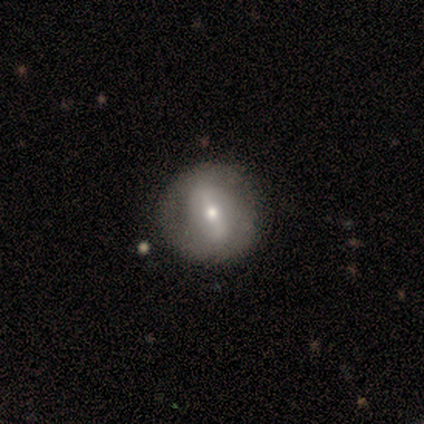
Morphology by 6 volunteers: A smooth galaxy with no disk features (50%, tied with featured or disk) that is round (67%).

Vote fractions:
- Smooth or featured? smooth: 50% (tied) / featured or disk: 50% (tied) / star or artifact: 0%
- How rounded? round: 67% / in between: 33% / cigar-shaped: 0%
- Merging? none: 50% (tied) / minor disturbance: 50% (tied) / major disturbance: 0% / merger: 0%